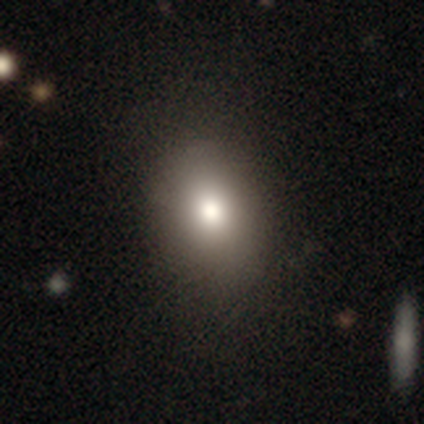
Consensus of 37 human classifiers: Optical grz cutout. It shows a smooth galaxy with no disk features (92%) that is in between round and cigar-shaped (65%). Merging: none (63%).